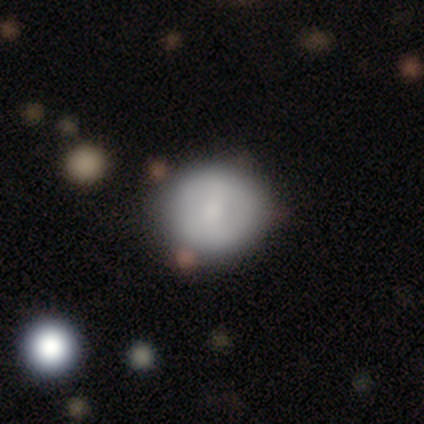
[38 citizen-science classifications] smooth-or-featured: smooth: 68% | featured or disk: 24% | star or artifact: 8%
  how-rounded: round: 92% | in between: 8% | cigar-shaped: 0%
  merging: none: 66% | minor disturbance: 20% | major disturbance: 14% | merger: 0%